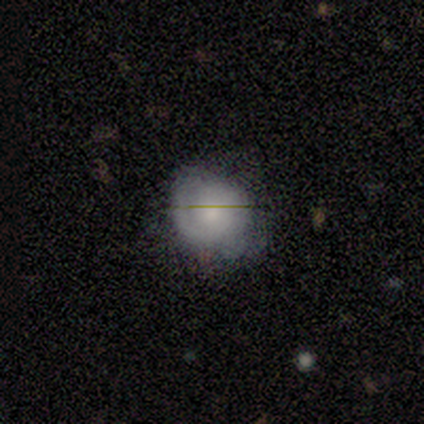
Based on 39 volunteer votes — smooth-or-featured: featured or disk: 46% | smooth: 38% | star or artifact: 15%
  disk-edge-on: no: 100% | yes: 0%
    bar: no: 89% | strong: 6% | weak: 6%
    has-spiral-arms: yes: 78% | no: 22%
      spiral-winding: tight: 50% | medium: 29% | loose: 21%
      spiral-arm-count: 1: 57% | 2: 29% | 3: 7% | can't tell: 7% | 4: 0% | more than 4: 0%
    bulge-size: small: 50% | moderate: 39% | large: 6% | none: 6% | dominant: 0%
  merging: none: 67% | minor disturbance: 15% | major disturbance: 12% | merger: 6%